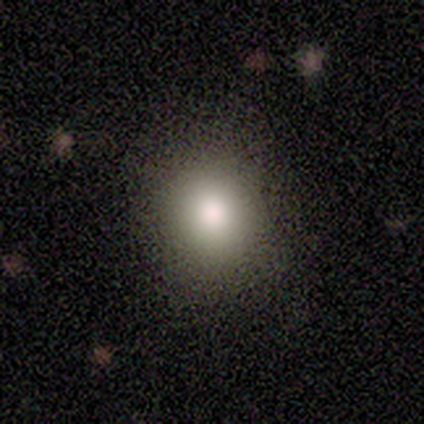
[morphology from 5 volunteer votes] This is clearly a smooth galaxy (80%). How rounded: likely in between (75%). Merging: clearly none (80%).